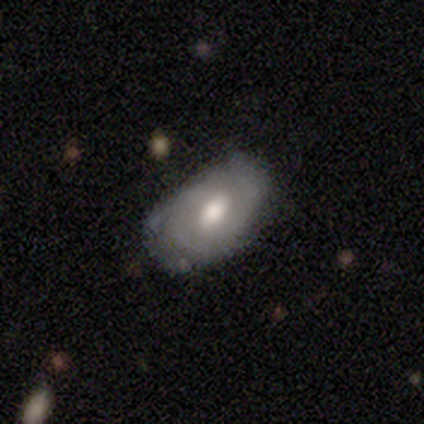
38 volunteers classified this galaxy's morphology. type=featured or disk (61%); edge-on=no (91%); bar=weak (57%); spiral arms=yes (76%); winding=tight (56%); arm count=can't tell (50%); bulge=moderate (62%); merging=none (74%).